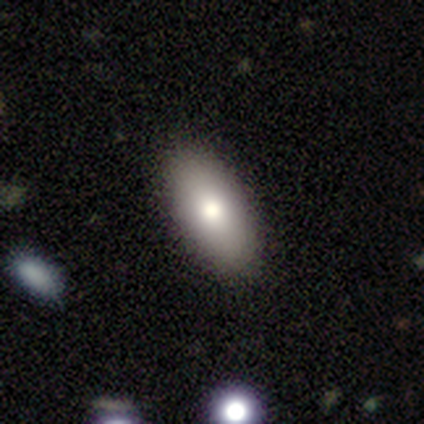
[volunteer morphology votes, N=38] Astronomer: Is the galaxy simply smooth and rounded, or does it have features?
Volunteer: smooth — 82%.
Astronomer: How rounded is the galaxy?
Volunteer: in between — 97%.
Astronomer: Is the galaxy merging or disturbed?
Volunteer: none — 61%.